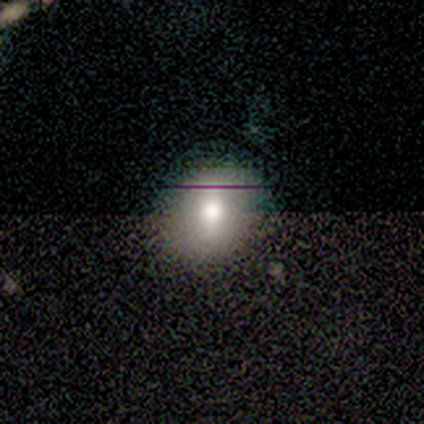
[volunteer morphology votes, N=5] A smooth galaxy with no disk features (100%) that is round (80%).

Vote fractions:
- Smooth or featured? smooth: 100% / featured or disk: 0% / star or artifact: 0%
- How rounded? round: 80% / in between: 20% / cigar-shaped: 0%
- Merging? none: 100% / minor disturbance: 0% / major disturbance: 0% / merger: 0%